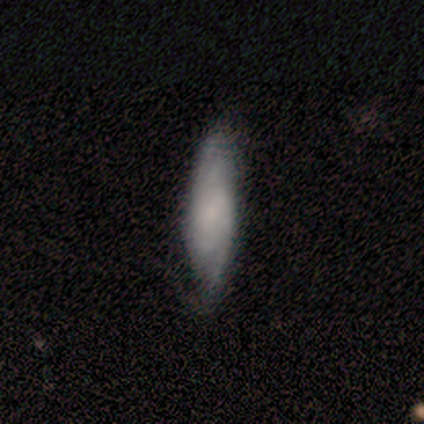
Smooth or featured: smooth — 100%
How rounded: cigar-shaped — 100%
Merging: minor disturbance — 67% (none — 33%)